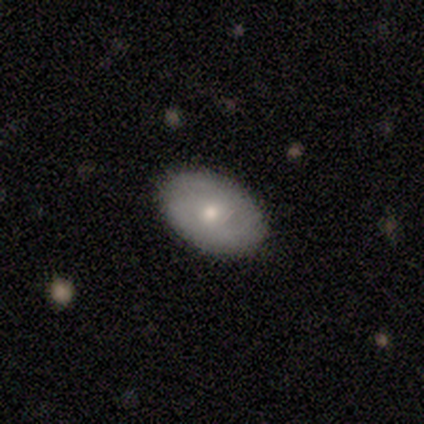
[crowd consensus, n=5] Morphology: type=smooth (80%); roundness=in between (100%); merging=none (60%).